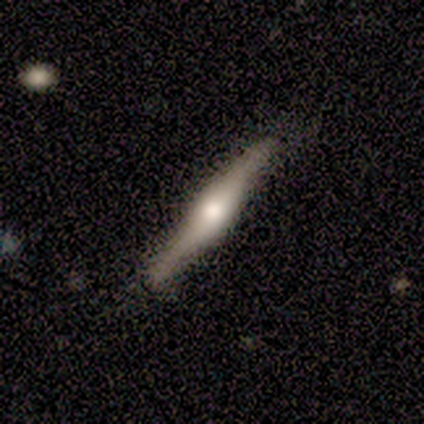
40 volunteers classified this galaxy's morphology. smooth_or_featured: featured or disk (p=0.80) [alt: smooth p=0.17]
disk_edge_on: yes (p=0.97) [alt: no p=0.03]
edge_on_bulge: rounded (p=0.87) [alt: boxy p=0.06]
merging: none (p=0.85) [alt: minor disturbance p=0.10]